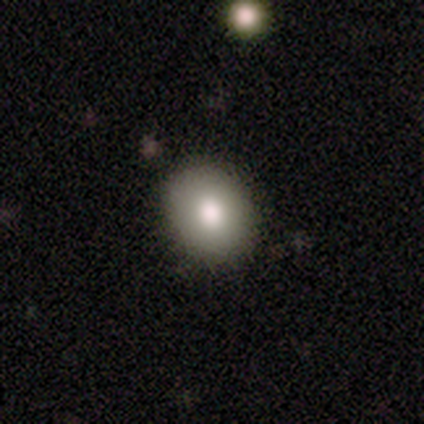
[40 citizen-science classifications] This appears to be a smooth galaxy with no disk features (80%) that is round (62%). Merging: none (95%).